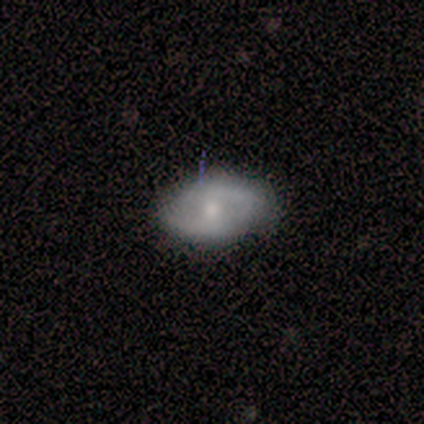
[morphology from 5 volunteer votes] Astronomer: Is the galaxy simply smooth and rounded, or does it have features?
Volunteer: smooth — 60%.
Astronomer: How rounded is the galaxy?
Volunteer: in between — 100%.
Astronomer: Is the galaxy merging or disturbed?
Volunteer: none — 100%.